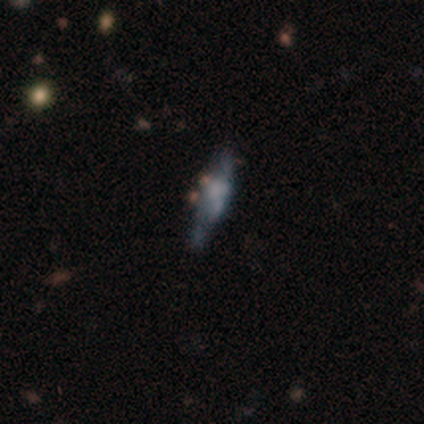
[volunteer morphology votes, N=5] Overall: featured or disk (60%; smooth 40%). Edge-on disk: yes (67%; no 33%). Edge-on bulge: boxy (50%, tied with rounded). Merging: none (40%; minor disturbance 20%).